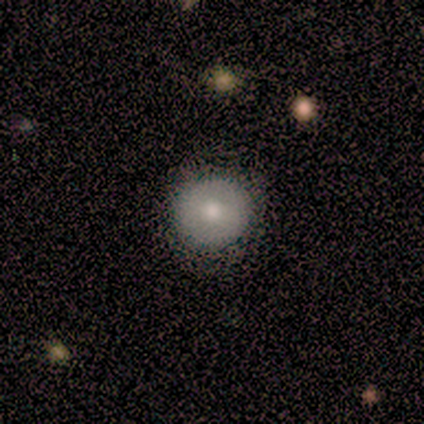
This is marginally a smooth galaxy (40%, tied with featured or disk). How rounded: clearly round (100%). Merging: likely none (75%).